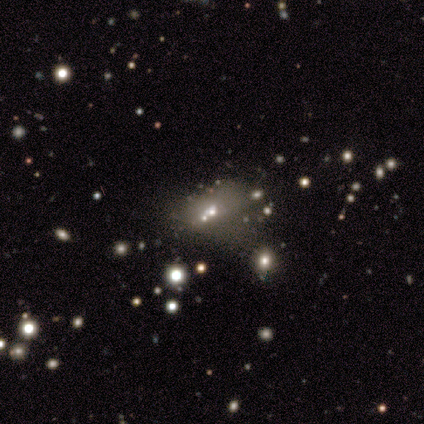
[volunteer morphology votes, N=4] Volunteers were most divided on "smooth or featured" (2-way tie): smooth: 50%, featured or disk: 50%, star or artifact: 0%. More confident: how rounded — in between (100%); merging — merger (75%).